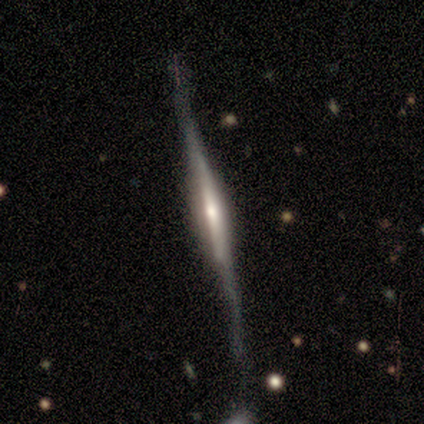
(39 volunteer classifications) A featured or disk galaxy (87%) viewed edge-on (97%) with a rounded central bulge (48%). Merging: none (65%).